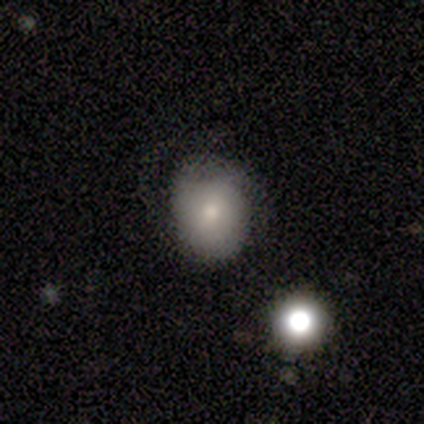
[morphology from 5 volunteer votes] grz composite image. It shows a smooth galaxy with no disk features (60%) that is in between round and cigar-shaped (67%). Merging: none (80%).